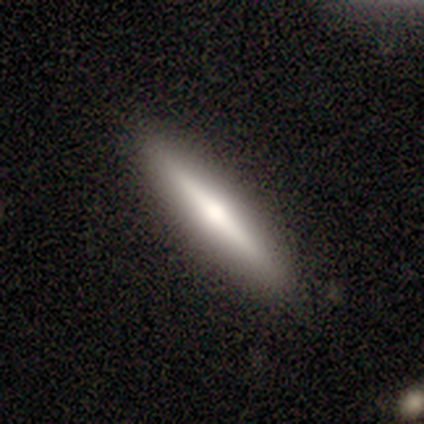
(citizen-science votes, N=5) smooth-or-featured: smooth: 60% | featured or disk: 40% | star or artifact: 0%
  how-rounded: cigar-shaped: 100% | round: 0% | in between: 0%
  merging: none: 100% | minor disturbance: 0% | major disturbance: 0% | merger: 0%